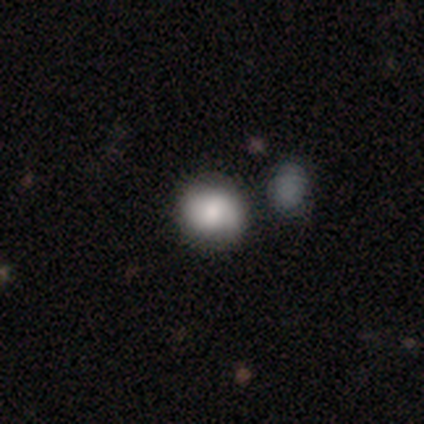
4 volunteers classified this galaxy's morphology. Overall: smooth (75%). How rounded: round (100%). Merging: none (50%, tied with major disturbance).